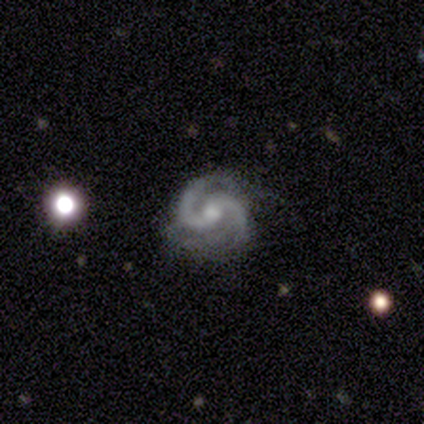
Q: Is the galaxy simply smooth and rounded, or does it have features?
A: featured or disk — 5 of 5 (100%).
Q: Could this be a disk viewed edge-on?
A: no — 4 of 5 (80%).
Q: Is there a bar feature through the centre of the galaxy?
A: weak — 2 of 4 (50%).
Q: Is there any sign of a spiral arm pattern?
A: yes — 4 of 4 (100%).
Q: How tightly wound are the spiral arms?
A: tight — 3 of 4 (75%).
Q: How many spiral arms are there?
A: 2 — 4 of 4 (100%).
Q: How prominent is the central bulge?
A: moderate — 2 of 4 (50%, tied with small).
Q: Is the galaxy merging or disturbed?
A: none — 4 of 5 (80%).